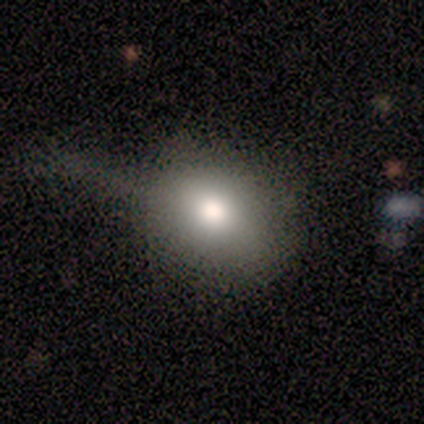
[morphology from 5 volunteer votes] This appears to be a smooth galaxy with no disk features (60%) that is in between round and cigar-shaped (100%). Merging: none (60%).